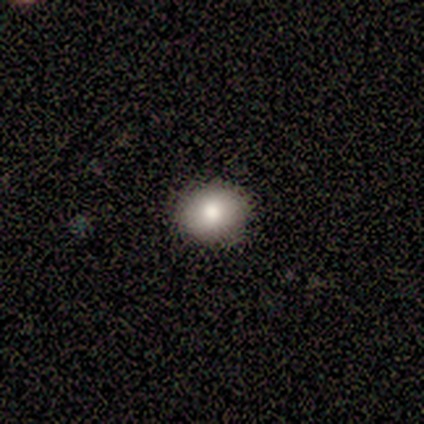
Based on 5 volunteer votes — This is clearly a smooth galaxy (80%). How rounded: likely round (75%). Merging: clearly none (80%).